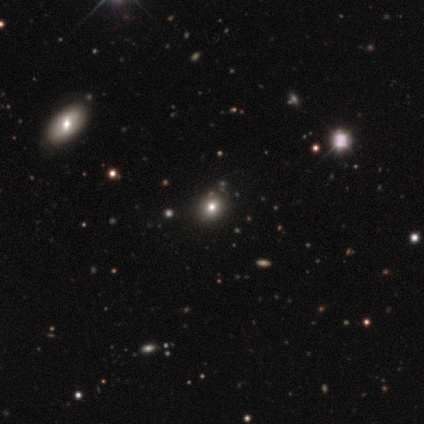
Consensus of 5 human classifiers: Smooth or featured? 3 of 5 (60%) said smooth. How rounded? 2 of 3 (67%) said round. Merging? 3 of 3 (100%) said none.